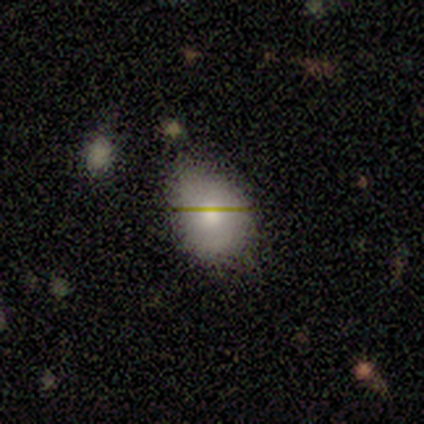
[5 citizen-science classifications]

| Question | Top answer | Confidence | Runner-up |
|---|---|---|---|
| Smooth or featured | smooth | 80% | star or artifact (20%) |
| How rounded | round | 50% | tied: in between (50%) |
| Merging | none | 75% | minor disturbance (25%) |